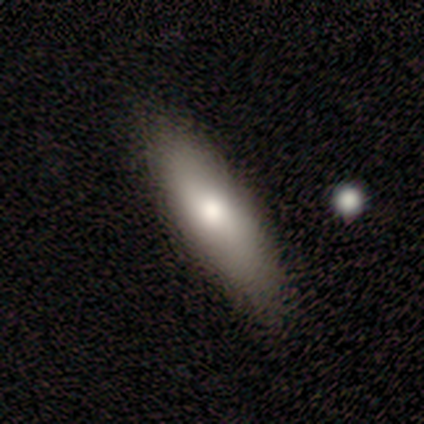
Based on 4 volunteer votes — smooth-or-featured: smooth: 50% (tied) | featured or disk: 50% (tied) | star or artifact: 0%
  how-rounded: in between: 50% (tied) | cigar-shaped: 50% (tied) | round: 0%
  merging: none: 100% | minor disturbance: 0% | major disturbance: 0% | merger: 0%